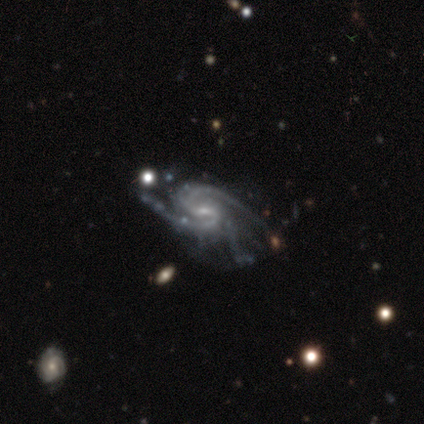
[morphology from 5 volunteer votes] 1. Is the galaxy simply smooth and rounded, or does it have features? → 100% featured or disk, 0% smooth, 0% star or artifact.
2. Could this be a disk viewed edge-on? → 100% no, 0% yes.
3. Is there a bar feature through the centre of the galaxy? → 60% weak, 20% strong, 20% no.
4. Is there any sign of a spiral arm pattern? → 100% yes, 0% no.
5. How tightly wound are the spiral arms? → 60% tight, 40% medium, 0% loose.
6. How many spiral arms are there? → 40% 2 (tied), 40% 4 (tied), 20% can't tell, 0% 1, 0% 3, 0% more than 4.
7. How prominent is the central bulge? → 100% small, 0% dominant, 0% large, 0% moderate, 0% none.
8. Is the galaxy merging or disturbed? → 40% none (tied), 40% minor disturbance (tied), 20% major disturbance, 0% merger.